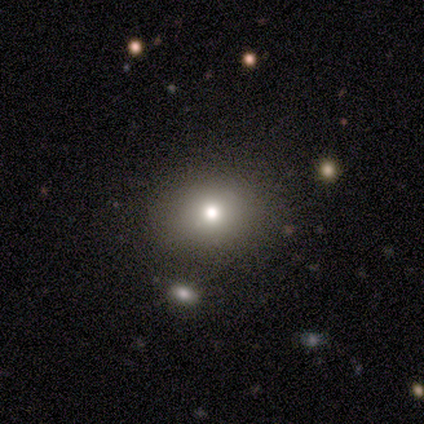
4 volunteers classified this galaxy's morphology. This appears to be a smooth galaxy with no disk features (50%, tied with star or artifact) that is round (100%). Merging: none (50%, tied with minor disturbance).